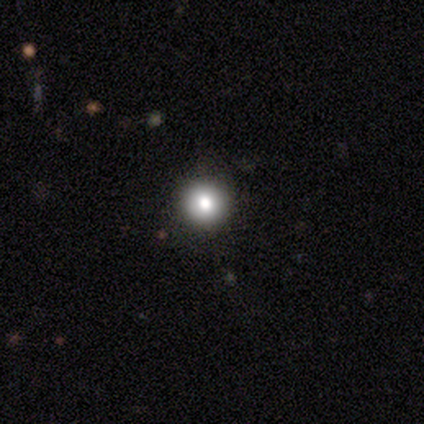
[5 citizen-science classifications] Smooth or featured?
  - smooth: 80% *
  - star or artifact: 20%
  - featured or disk: 0%
How rounded?
  - round: 100% *
  - in between: 0%
  - cigar-shaped: 0%
Merging?
  - none: 100% *
  - minor disturbance: 0%
  - major disturbance: 0%
  - merger: 0%